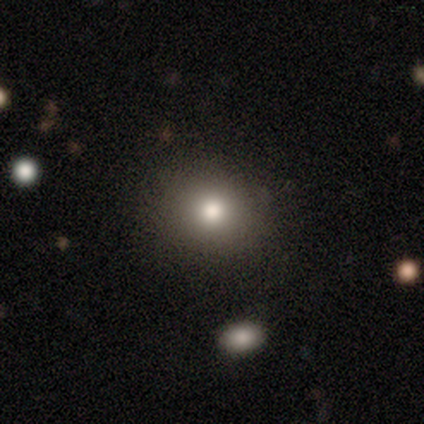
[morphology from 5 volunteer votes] Smooth or featured?
  - smooth: 100% *
  - featured or disk: 0%
  - star or artifact: 0%
How rounded?
  - round: 80% *
  - in between: 20%
  - cigar-shaped: 0%
Merging?
  - none: 80% *
  - minor disturbance: 20%
  - major disturbance: 0%
  - merger: 0%